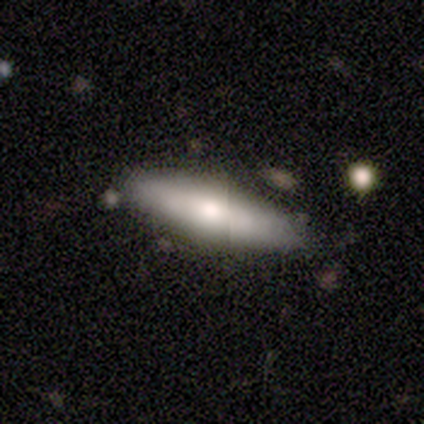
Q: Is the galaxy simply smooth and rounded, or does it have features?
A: smooth — 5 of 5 (100%).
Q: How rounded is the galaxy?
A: in between — 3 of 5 (60%).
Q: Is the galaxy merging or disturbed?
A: none — 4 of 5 (80%).